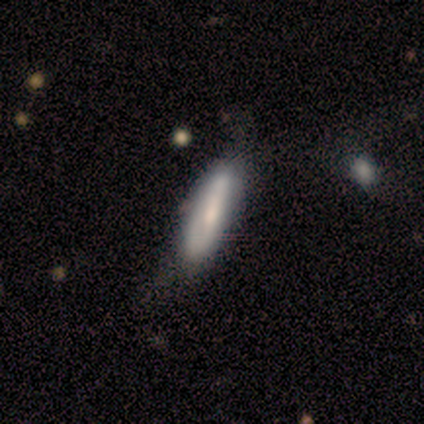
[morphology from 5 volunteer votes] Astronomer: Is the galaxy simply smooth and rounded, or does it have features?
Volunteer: featured or disk — 60% (runner-up: smooth, 40%).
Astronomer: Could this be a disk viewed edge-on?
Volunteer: no — 100%.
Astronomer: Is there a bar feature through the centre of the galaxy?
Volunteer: no — 67%.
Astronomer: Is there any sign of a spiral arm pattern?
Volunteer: no — 67%.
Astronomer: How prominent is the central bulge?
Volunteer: moderate — 67%.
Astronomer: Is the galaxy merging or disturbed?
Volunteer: none — 80%.